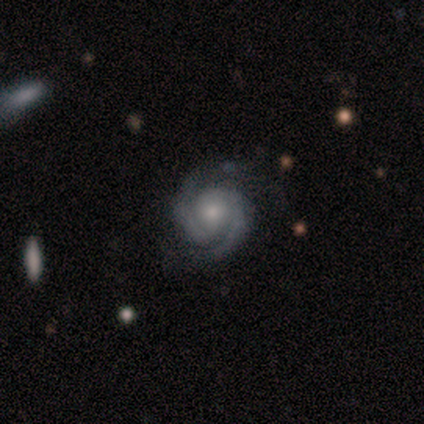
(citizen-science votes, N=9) A featured or disk galaxy (100%) with no bar (78%), 2 (100%) tight (78%) spiral arms (100%) and a moderate central bulge (56%).

Vote fractions:
- Smooth or featured? featured or disk: 100% / smooth: 0% / star or artifact: 0%
- Edge-on disk? no: 100% / yes: 0%
- Bar? no: 78% / strong: 11% / weak: 11%
- Spiral arms? yes: 100% / no: 0%
- Spiral winding? tight: 78% / medium: 22% / loose: 0%
- Spiral arm count? 2: 100% / 1: 0% / 3: 0% / 4: 0% / more than 4: 0% / can't tell: 0%
- Bulge size? moderate: 56% / small: 44% / dominant: 0% / large: 0% / none: 0%
- Merging? none: 100% / minor disturbance: 0% / major disturbance: 0% / merger: 0%